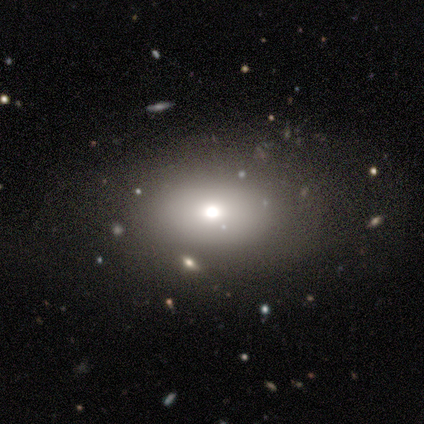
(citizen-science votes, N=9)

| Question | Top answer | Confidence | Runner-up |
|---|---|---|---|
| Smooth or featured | smooth | 44% | tied: featured or disk (44%) |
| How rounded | round | 50% | tied: in between (50%) |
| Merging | none | 62% | minor disturbance (25%) |